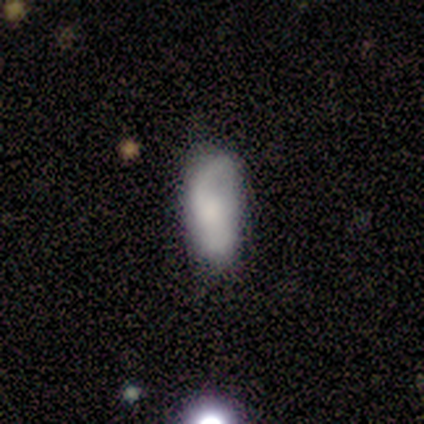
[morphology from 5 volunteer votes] This appears to be a smooth galaxy with no disk features (60%) that is in between round and cigar-shaped (100%). Merging: minor disturbance (50%).